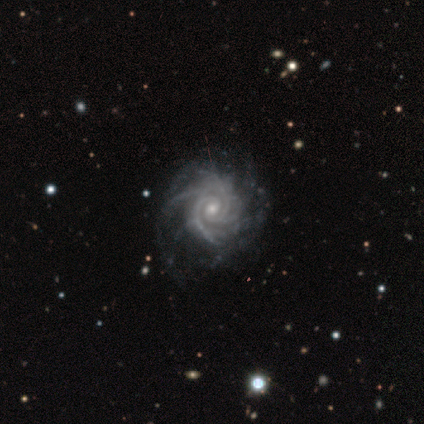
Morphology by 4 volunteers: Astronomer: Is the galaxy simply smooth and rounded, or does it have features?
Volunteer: featured or disk — 100%.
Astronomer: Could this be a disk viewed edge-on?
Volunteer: no — 100%.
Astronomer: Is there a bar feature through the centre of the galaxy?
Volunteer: no — 100%.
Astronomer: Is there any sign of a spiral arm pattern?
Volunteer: yes — 100%.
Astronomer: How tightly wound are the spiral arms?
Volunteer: tight — 100%.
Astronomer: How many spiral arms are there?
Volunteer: more than 4 — 50%.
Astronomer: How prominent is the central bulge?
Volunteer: moderate — 50%, tied with small at 50%.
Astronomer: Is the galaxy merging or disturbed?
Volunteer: none — 50%.